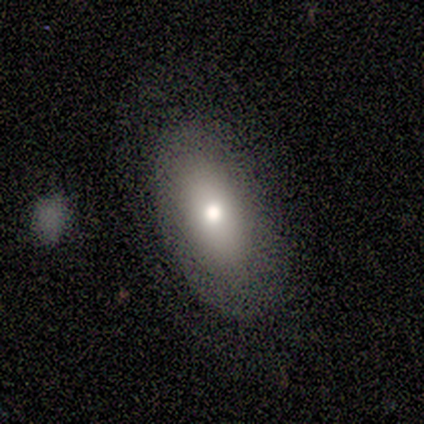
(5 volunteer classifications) smooth 80%, featured or disk 20%, star or artifact 0%. Down the decision tree: how rounded — in between (100%); merging — none (100%).